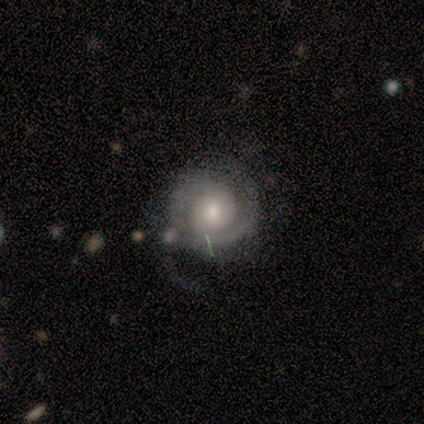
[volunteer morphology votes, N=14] A featured or disk galaxy (57%) with no bar (88%), 2 (88%) tight (50%, tied with medium) spiral arms (100%) and a small central bulge (50%). Merging: none (91%).